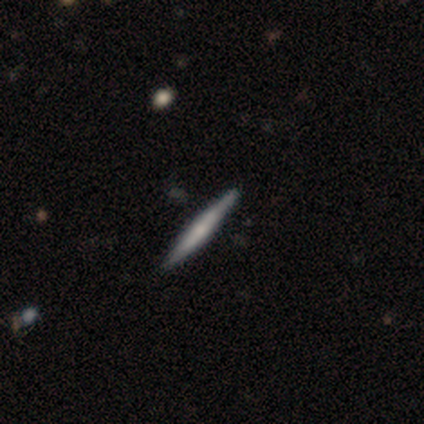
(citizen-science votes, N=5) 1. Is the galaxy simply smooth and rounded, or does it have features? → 40% featured or disk (tied), 40% star or artifact (tied), 20% smooth.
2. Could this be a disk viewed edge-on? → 100% yes, 0% no.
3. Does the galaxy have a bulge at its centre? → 50% boxy (tied), 50% rounded (tied), 0% none.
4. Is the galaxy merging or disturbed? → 100% none, 0% minor disturbance, 0% major disturbance, 0% merger.